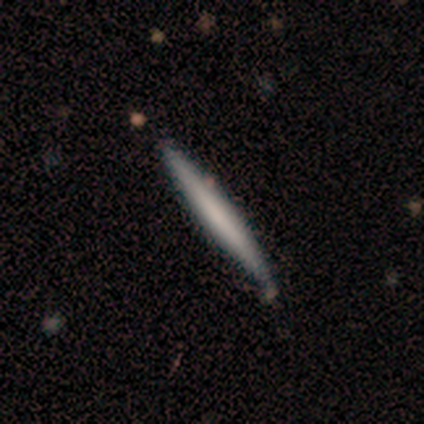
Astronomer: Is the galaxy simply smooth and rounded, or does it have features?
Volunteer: smooth — 100%.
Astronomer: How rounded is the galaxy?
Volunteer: cigar-shaped — 100%.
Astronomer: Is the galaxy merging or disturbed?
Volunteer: none — 88%.